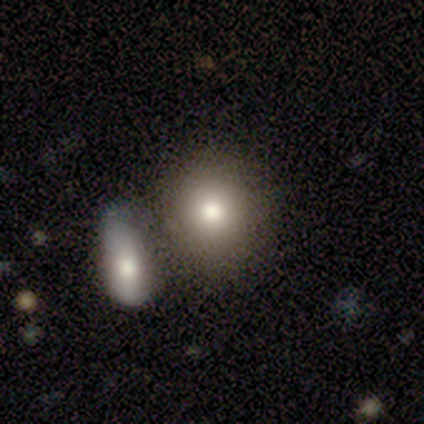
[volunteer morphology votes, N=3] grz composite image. It shows a smooth galaxy with no disk features (67%) that is round (50%, tied with in between). Merging: none (100%).